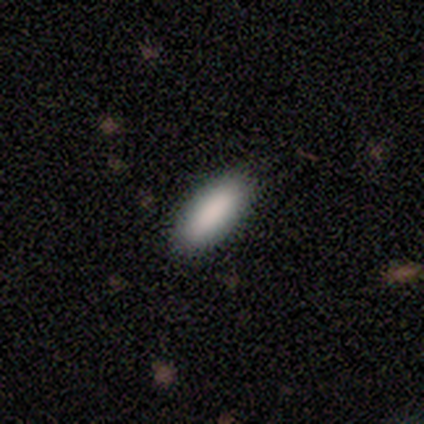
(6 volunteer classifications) This appears to be a smooth galaxy with no disk features (100%) that is in between round and cigar-shaped (83%). Merging: none (67%).